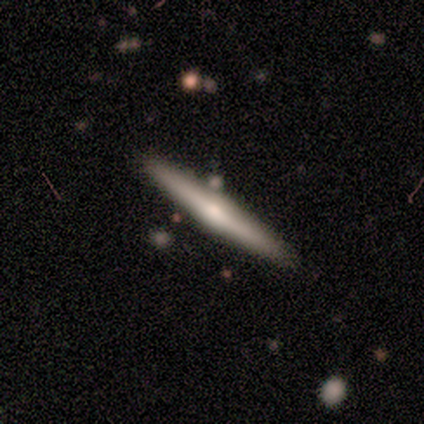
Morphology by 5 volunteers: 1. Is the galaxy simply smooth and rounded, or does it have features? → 80% featured or disk, 20% smooth, 0% star or artifact.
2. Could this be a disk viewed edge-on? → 100% yes, 0% no.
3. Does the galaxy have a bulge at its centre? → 100% rounded, 0% boxy, 0% none.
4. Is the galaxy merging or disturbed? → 100% none, 0% minor disturbance, 0% major disturbance, 0% merger.